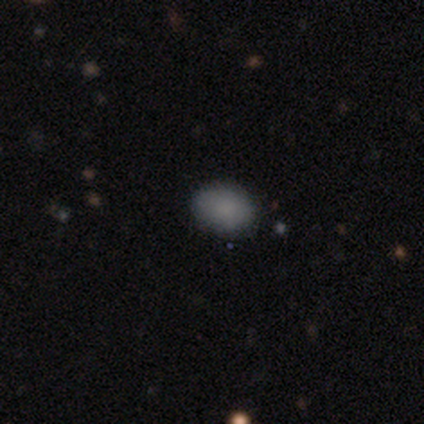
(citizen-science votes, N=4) Volunteers were most divided on "how rounded" (2-way tie): round: 50%, in between: 50%, cigar-shaped: 0%. More confident: smooth or featured — smooth (100%); merging — none (100%).